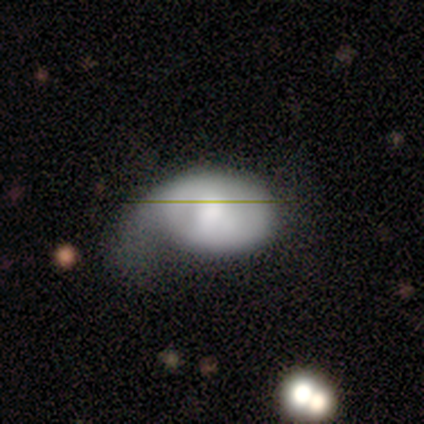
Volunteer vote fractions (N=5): A smooth galaxy with no disk features (80%) that is in between round and cigar-shaped (75%). Merging: none (40%, tied with major disturbance).